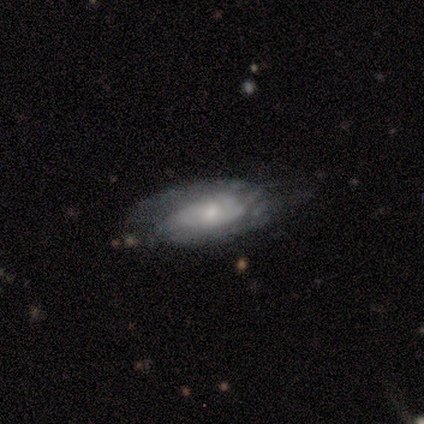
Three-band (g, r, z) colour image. It shows a featured or disk galaxy (80%) with no bar (75%), tight (75%) spiral arms (100%) and a small central bulge (75%). Merging: minor disturbance (40%, tied with major disturbance).